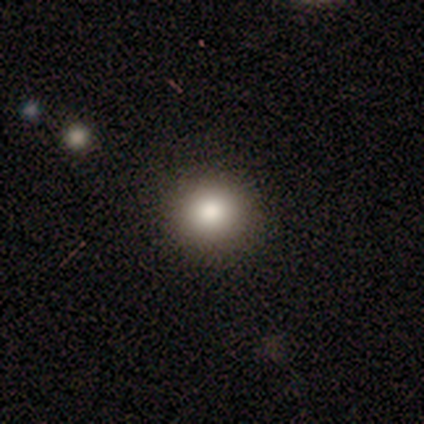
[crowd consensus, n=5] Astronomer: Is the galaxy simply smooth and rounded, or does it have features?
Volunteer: smooth — 80%.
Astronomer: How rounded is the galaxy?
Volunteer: round — 75%.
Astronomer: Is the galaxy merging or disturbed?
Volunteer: none — 80%.